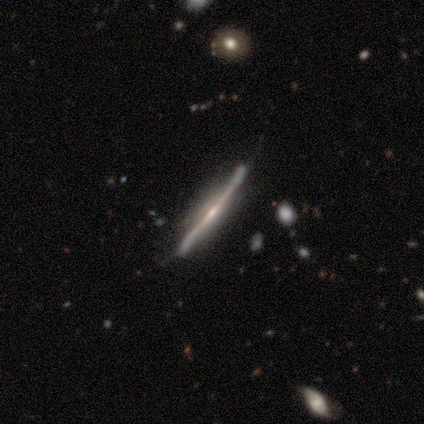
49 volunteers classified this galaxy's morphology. smooth_or_featured: featured or disk (p=0.94) [alt: smooth p=0.04]
disk_edge_on: yes (p=0.98) [alt: no p=0.02]
edge_on_bulge: rounded (p=0.53) [alt: none p=0.36]
merging: none (p=0.69) [alt: minor disturbance p=0.25]